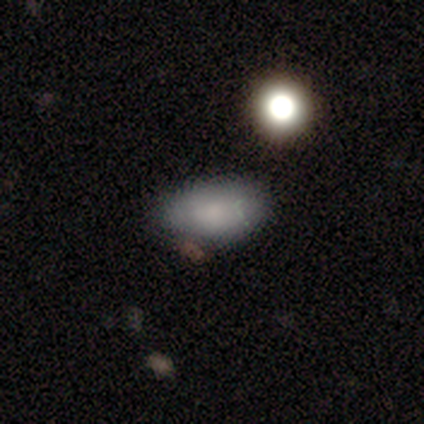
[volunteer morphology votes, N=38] This is clearly a smooth galaxy (84%). How rounded: clearly in between (94%). Merging: possibly none (50%).